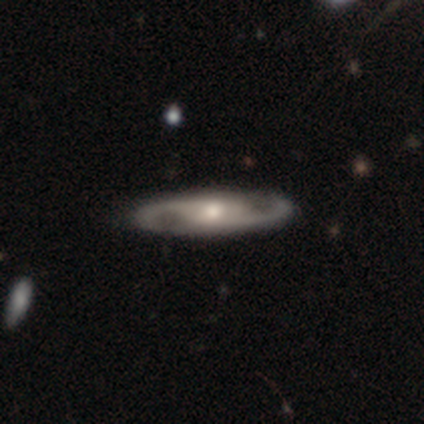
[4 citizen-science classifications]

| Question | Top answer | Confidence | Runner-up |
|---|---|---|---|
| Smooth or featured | featured or disk | 75% | smooth (25%) |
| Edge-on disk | no | 67% | yes (33%) |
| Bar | weak | 50% | tied: no (50%) |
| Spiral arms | yes | 100% | — |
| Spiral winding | medium | 100% | — |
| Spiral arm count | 2 | 100% | — |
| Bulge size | small | 100% | — |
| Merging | none | 100% | — |